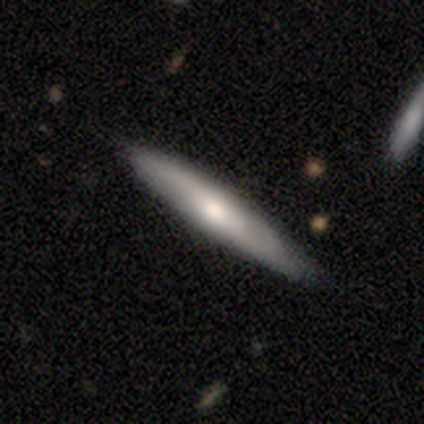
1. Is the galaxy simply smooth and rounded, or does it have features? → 60% featured or disk, 40% smooth, 0% star or artifact.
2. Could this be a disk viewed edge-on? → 100% yes, 0% no.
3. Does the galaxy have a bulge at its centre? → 67% none, 33% rounded, 0% boxy.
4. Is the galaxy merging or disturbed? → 100% none, 0% minor disturbance, 0% major disturbance, 0% merger.